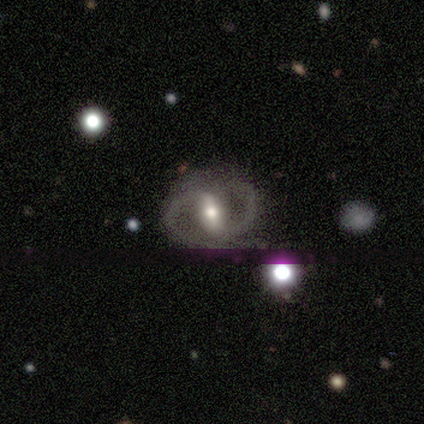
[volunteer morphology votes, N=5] Smooth or featured: featured or disk — 80% (smooth — 20%)
Edge-on disk: no — 100%
Bar: strong — 50% (weak — 25%)
Spiral arms: yes — 50% (tied with no — 50%)
Spiral winding: medium — 100%
Spiral arm count: 2 — 100%
Bulge size: moderate — 75% (small — 25%)
Merging: none — 40% (tied with minor disturbance — 40%)